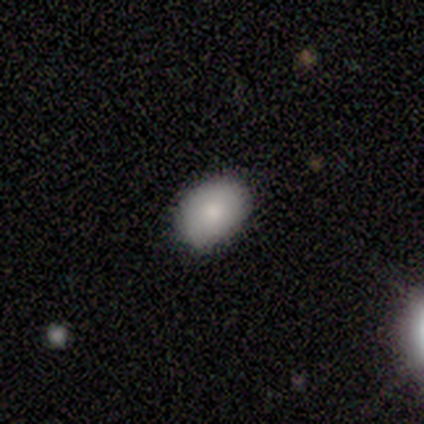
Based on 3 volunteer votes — Smooth or featured? smooth (100%)
How rounded? in between (67%)
Merging? minor disturbance (67%)